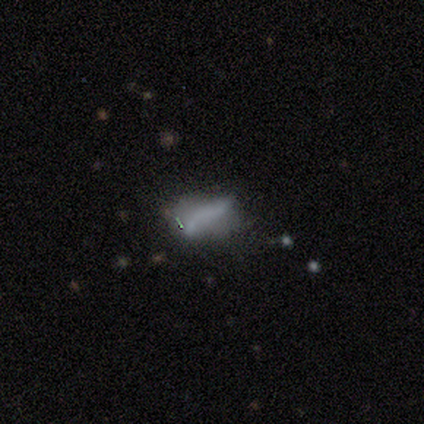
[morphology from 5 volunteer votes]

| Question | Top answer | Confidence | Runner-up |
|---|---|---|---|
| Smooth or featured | featured or disk | 60% | smooth (40%) |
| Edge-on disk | no | 100% | — |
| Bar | no | 100% | — |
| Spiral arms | no | 67% | yes (33%) |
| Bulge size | none | 100% | — |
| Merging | major disturbance | 40% | none (20%) |